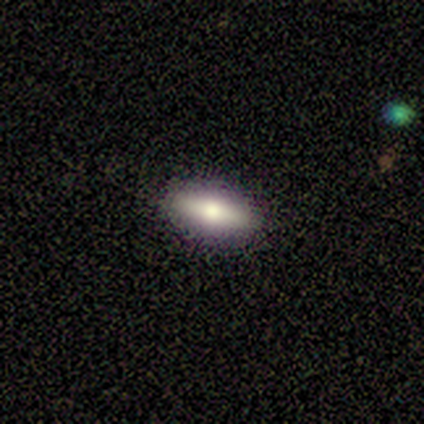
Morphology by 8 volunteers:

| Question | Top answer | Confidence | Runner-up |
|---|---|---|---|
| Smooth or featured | smooth | 62% | featured or disk (38%) |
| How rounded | in between | 60% | cigar-shaped (40%) |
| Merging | none | 88% | minor disturbance (12%) |